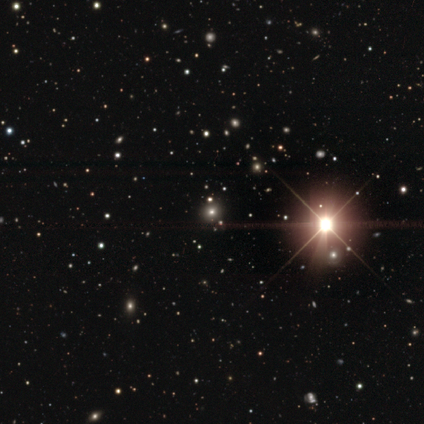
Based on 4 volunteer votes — Q: Smooth or featured?
A: smooth (50%); tied with: star or artifact (50%)
Q: How rounded?
A: round (100%)
Q: Merging?
A: none (50%); tied with: minor disturbance (50%)